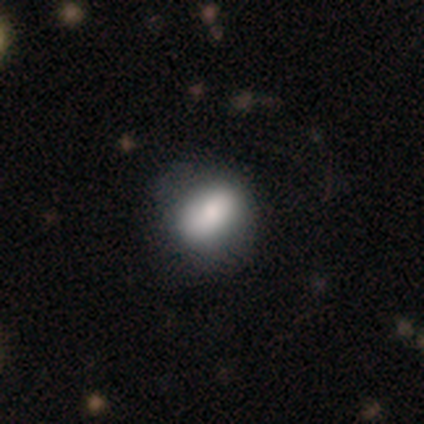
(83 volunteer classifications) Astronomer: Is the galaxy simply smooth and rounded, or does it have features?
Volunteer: smooth — 76%.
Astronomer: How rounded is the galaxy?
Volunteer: in between — 67%.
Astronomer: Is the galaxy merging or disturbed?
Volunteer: minor disturbance — 24% (runner-up: none, 22%).